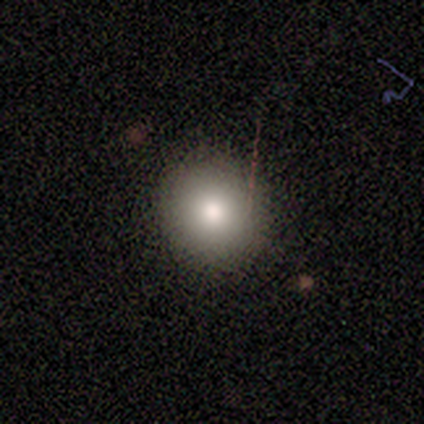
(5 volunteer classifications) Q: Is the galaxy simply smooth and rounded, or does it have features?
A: smooth — 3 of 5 (60%).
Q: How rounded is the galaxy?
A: round — 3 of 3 (100%).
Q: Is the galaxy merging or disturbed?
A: none — 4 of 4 (100%).